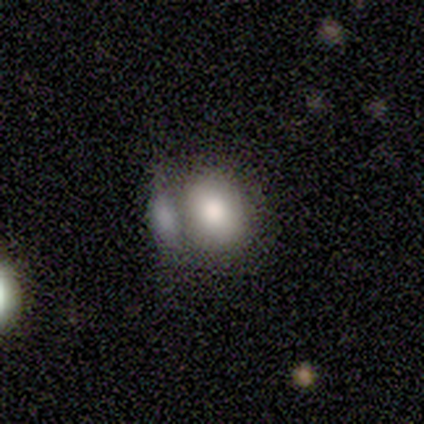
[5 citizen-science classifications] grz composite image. It shows a smooth galaxy with no disk features (80%) that is in between round and cigar-shaped (75%). Merging: merger (60%).